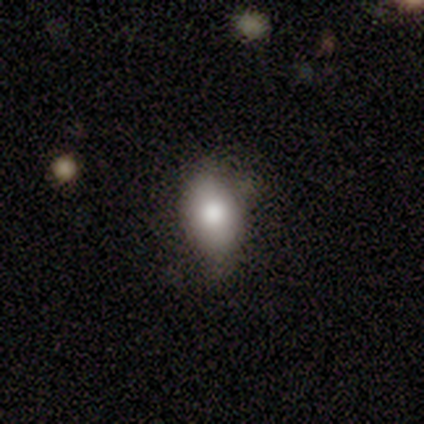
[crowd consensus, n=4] Smooth or featured?
  - smooth: 100% *
  - featured or disk: 0%
  - star or artifact: 0%
How rounded?
  - round: 50% * (tied)
  - in between: 50% * (tied)
  - cigar-shaped: 0%
Merging?
  - none: 50% * (tied)
  - minor disturbance: 50% * (tied)
  - major disturbance: 0%
  - merger: 0%